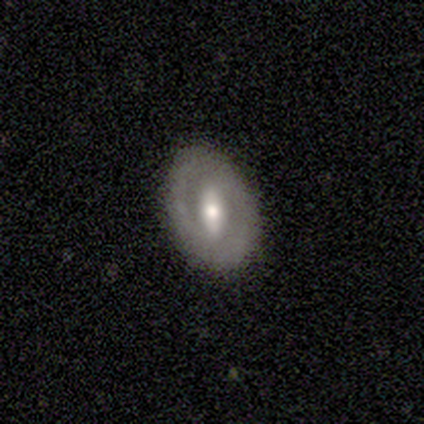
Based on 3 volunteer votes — Overall: featured or disk (67%; smooth 33%). Edge-on disk: no (100%). Bar: weak (50%, tied with no). Spiral arms: no (100%). Bulge size: dominant (50%, tied with moderate). Merging: none (67%; minor disturbance 33%).